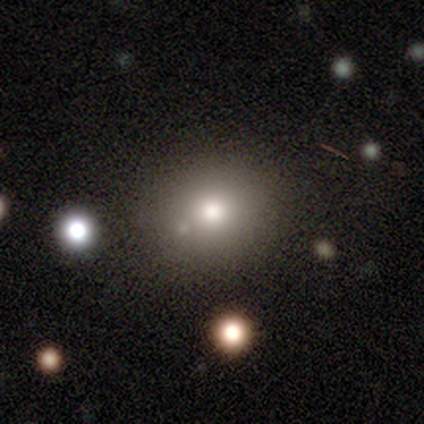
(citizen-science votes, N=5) Smooth or featured? smooth (80%)
How rounded? round (75%)
Merging? none (100%)